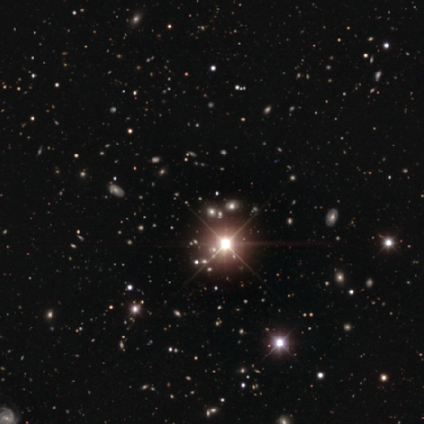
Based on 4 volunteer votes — star or artifact 100%, smooth 0%, featured or disk 0%.